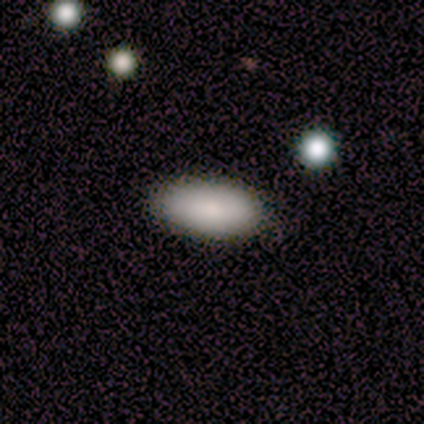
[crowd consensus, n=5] This is likely a smooth galaxy (60%). How rounded: clearly in between (100%). Merging: clearly none (100%).